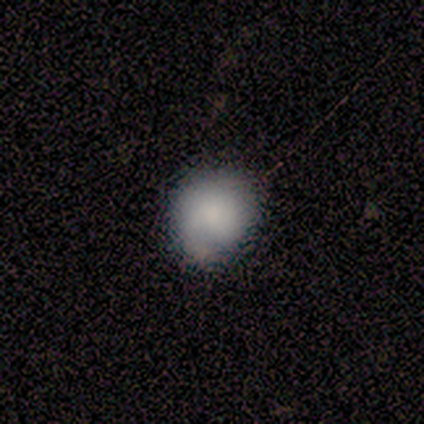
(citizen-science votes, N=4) Morphology: type=smooth (75%); roundness=round (100%); merging=none (50%, tied with minor disturbance).